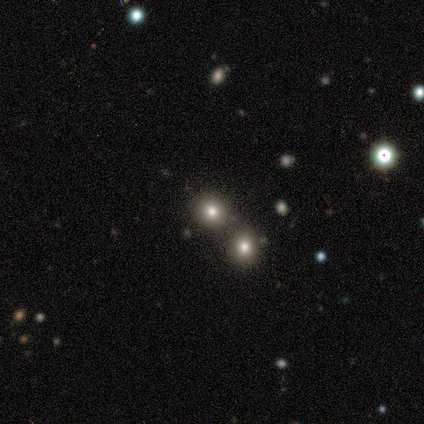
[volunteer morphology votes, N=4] This appears to be a smooth galaxy with no disk features (50%, tied with star or artifact) that is round (100%). Merging: merger (100%).